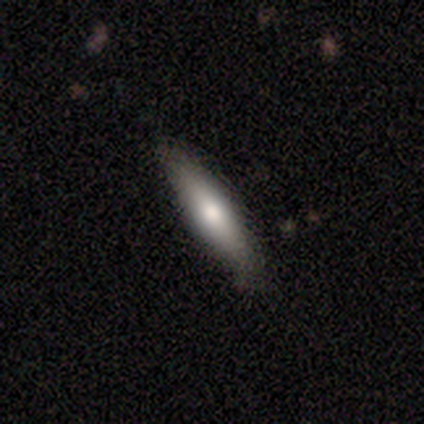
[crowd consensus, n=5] Smooth or featured? 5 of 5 (100%) said smooth. How rounded? 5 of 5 (100%) said cigar-shaped. Merging? 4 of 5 (80%) said none.